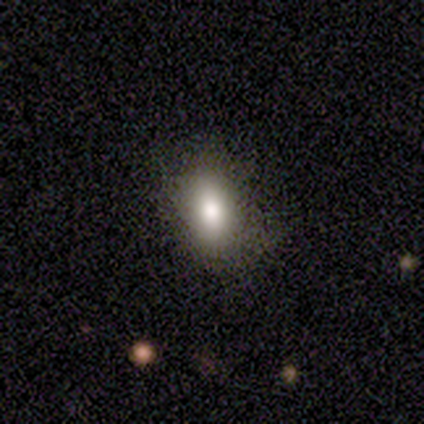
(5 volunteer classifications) This appears to be a smooth galaxy with no disk features (60%) that is in between round and cigar-shaped (100%). Merging: none (100%).